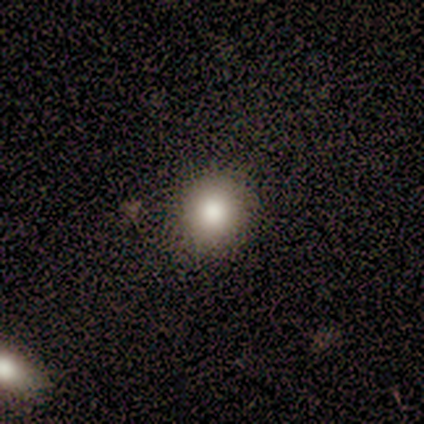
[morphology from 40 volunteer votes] Smooth or featured? smooth (78%)
How rounded? round (90%)
Merging? none (94%)